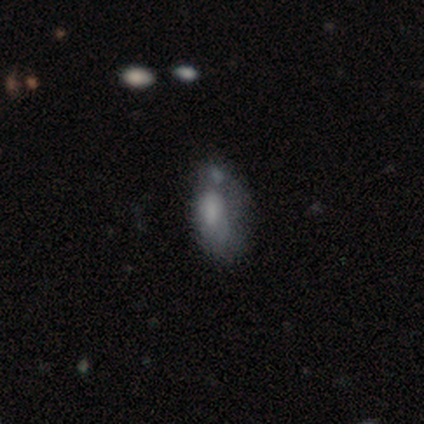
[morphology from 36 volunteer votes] A smooth galaxy with no disk features (72%) that is in between round and cigar-shaped (77%). Merging: minor disturbance (36%).